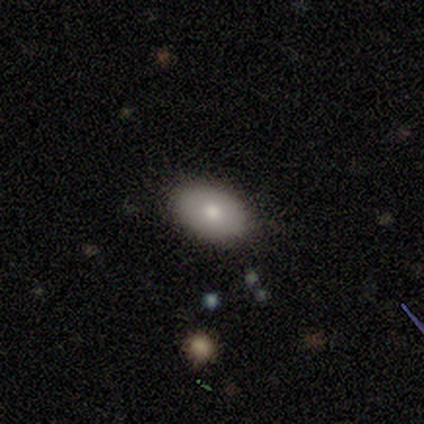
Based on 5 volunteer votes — Q: Smooth or featured?
A: smooth (60%); runner-up: featured or disk (20%)
Q: How rounded?
A: in between (100%)
Q: Merging?
A: none (100%)